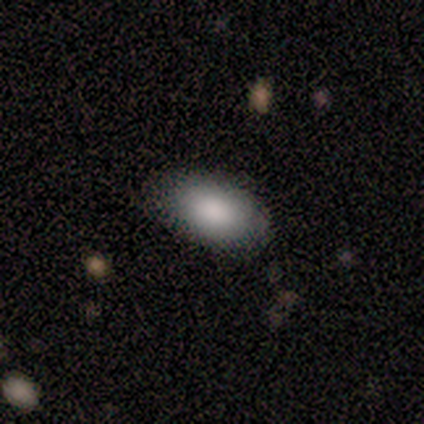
Smooth or featured? smooth (92%)
How rounded? in between (83%)
Merging? none (92%)